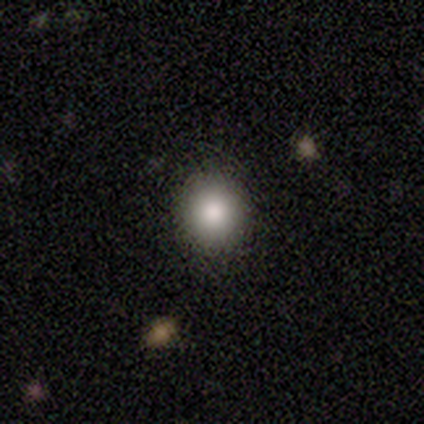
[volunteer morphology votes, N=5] A smooth galaxy with no disk features (100%) that is round (100%). Merging: none (100%).